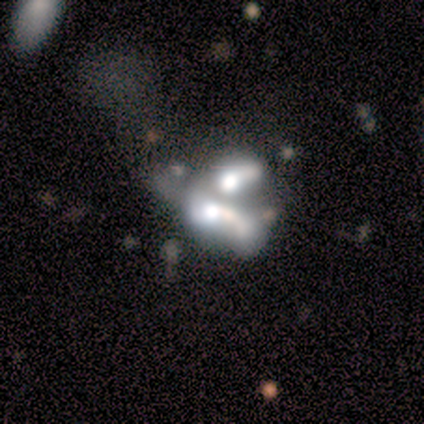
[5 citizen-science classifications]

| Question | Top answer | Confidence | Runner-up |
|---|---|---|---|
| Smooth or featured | featured or disk | 80% | star or artifact (20%) |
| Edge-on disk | no | 100% | — |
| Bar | no | 100% | — |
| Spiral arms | no | 100% | — |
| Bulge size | large | 50% | moderate (25%) |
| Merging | merger | 100% | — |